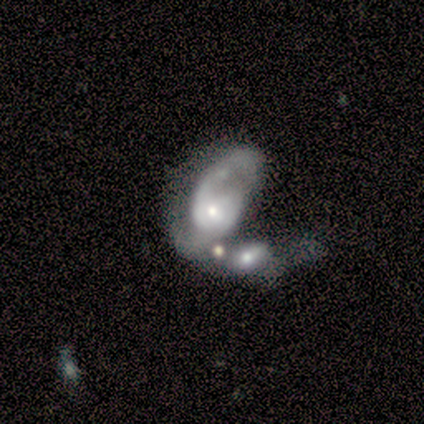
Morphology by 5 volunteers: This is likely a featured or disk galaxy (60%). It is likely not viewed edge-on (67%). Bar: possibly strong (50%, tied with no). Spiral arm pattern: clearly yes (100%). Spiral arm count: possibly 1 (50%, tied with 2). Spiral winding: clearly loose (100%). Central bulge: clearly small (100%). Merging: marginally major disturbance (40%, tied with merger).